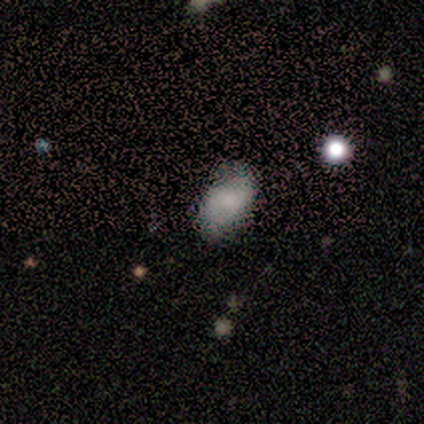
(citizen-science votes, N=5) This is clearly a smooth galaxy (100%). How rounded: clearly in between (80%). Merging: clearly none (100%).